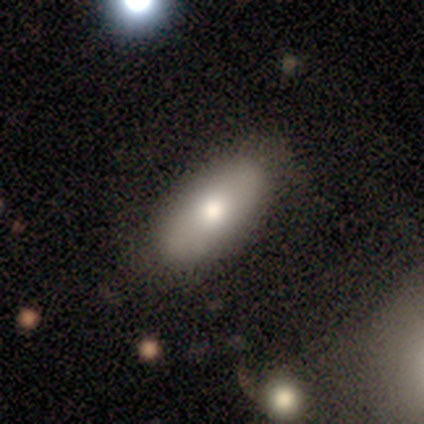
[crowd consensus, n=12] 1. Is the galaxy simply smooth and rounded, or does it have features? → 58% smooth, 33% featured or disk, 8% star or artifact.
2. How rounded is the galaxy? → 86% in between, 14% cigar-shaped, 0% round.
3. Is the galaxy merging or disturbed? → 82% none, 18% minor disturbance, 0% major disturbance, 0% merger.